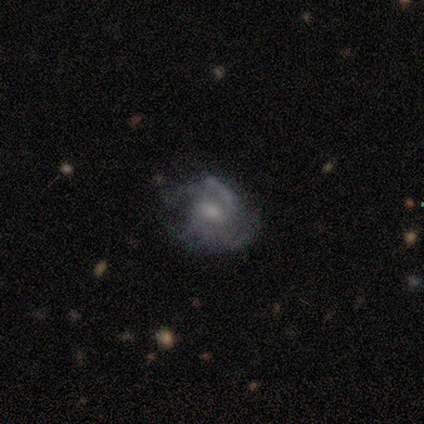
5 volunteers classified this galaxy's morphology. Smooth or featured?
  - featured or disk: 80% *
  - smooth: 20%
  - star or artifact: 0%
Edge-on disk?
  - no: 100% *
  - yes: 0%
Bar?
  - no: 75% *
  - weak: 25%
  - strong: 0%
Spiral arms?
  - yes: 50% * (tied)
  - no: 50% * (tied)
Spiral winding?
  - medium: 100% *
  - tight: 0%
  - loose: 0%
Spiral arm count?
  - 2: 50% * (tied)
  - can't tell: 50% * (tied)
  - 1: 0%
  - 3: 0%
  - 4: 0%
  - more than 4: 0%
Bulge size?
  - moderate: 75% *
  - small: 25%
  - dominant: 0%
  - large: 0%
  - none: 0%
Merging?
  - minor disturbance: 40% * (tied)
  - major disturbance: 40% * (tied)
  - none: 20%
  - merger: 0%